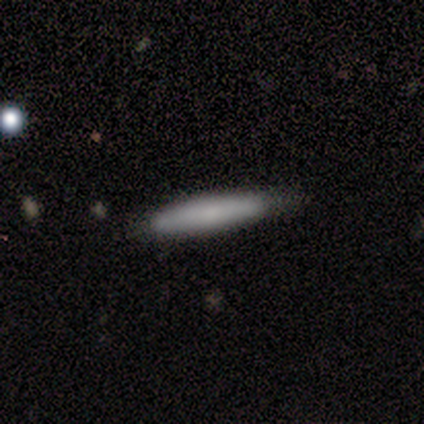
Overall: smooth (100%). How rounded: cigar-shaped (100%). Merging: none (100%).